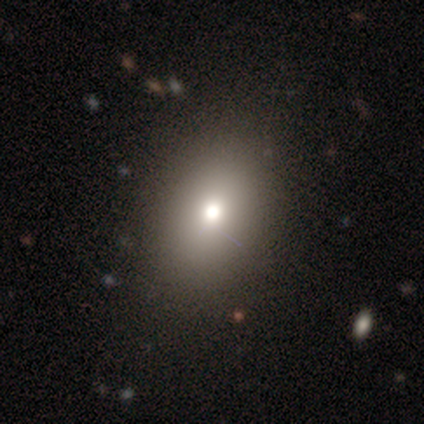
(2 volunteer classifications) smooth-or-featured: smooth: 100% | featured or disk: 0% | star or artifact: 0%
  how-rounded: round: 50% (tied) | in between: 50% (tied) | cigar-shaped: 0%
  merging: minor disturbance: 50% (tied) | major disturbance: 50% (tied) | none: 0% | merger: 0%